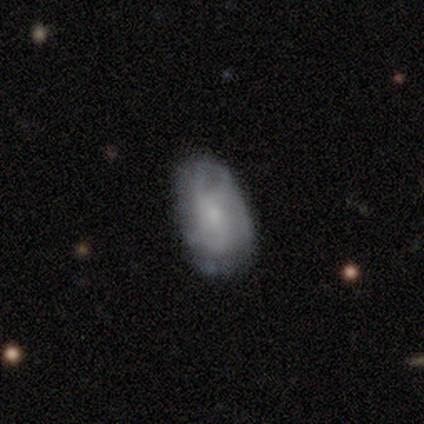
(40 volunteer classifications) featured or disk 68%, smooth 28%, star or artifact 5%. Down the decision tree: edge-on disk — no (96%); bar — no (62%); spiral arms — yes (81%); spiral arm count — can't tell (43%); spiral winding — medium (43%); bulge size — small (62%); merging — none (66%).